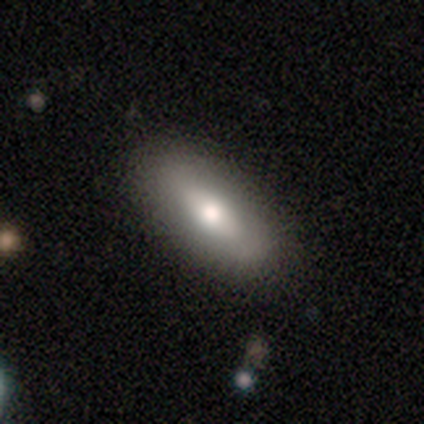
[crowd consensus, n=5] smooth-or-featured: smooth: 100% | featured or disk: 0% | star or artifact: 0%
  how-rounded: in between: 100% | round: 0% | cigar-shaped: 0%
  merging: none: 80% | minor disturbance: 20% | major disturbance: 0% | merger: 0%